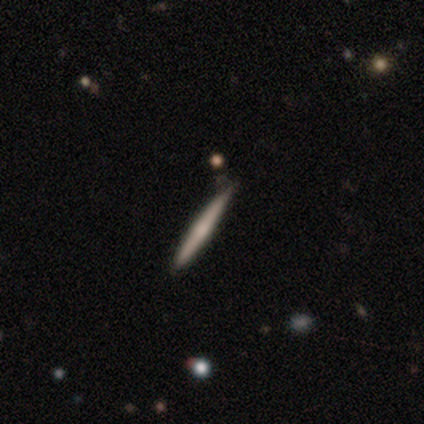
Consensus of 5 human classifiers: Smooth or featured? 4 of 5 (80%) said featured or disk. Edge-on disk? 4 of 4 (100%) said yes. Edge-on bulge? 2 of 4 (50%) said rounded. Merging? 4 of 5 (80%) said none.